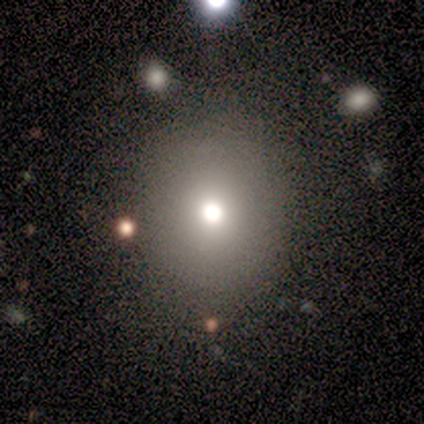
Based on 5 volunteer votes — A smooth galaxy with no disk features (60%) that is round (100%). Merging: none (67%).